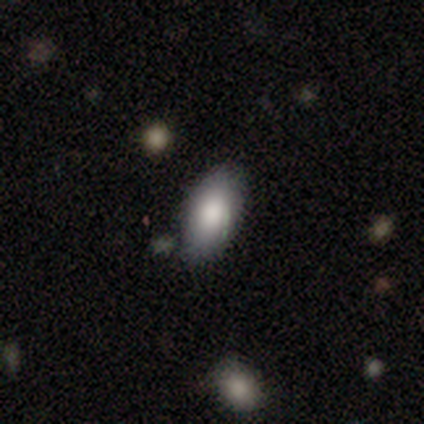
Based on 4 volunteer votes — Smooth or featured: smooth — 75% (featured or disk — 25%)
How rounded: in between — 100%
Merging: none — 100%